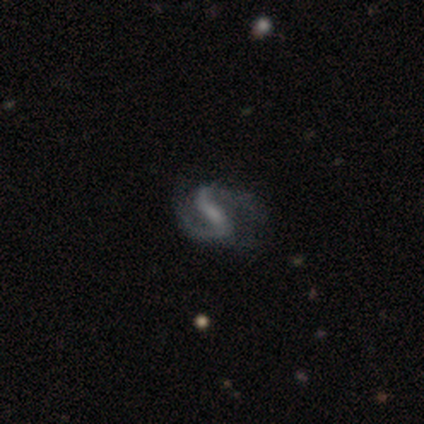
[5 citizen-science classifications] Smooth or featured: featured or disk — 100%
Edge-on disk: no — 100%
Bar: strong — 80% (no — 20%)
Spiral arms: yes — 100%
Spiral winding: medium — 80% (loose — 20%)
Spiral arm count: 2 — 100%
Bulge size: moderate — 40% (tied with small — 40%)
Merging: none — 80% (minor disturbance — 20%)